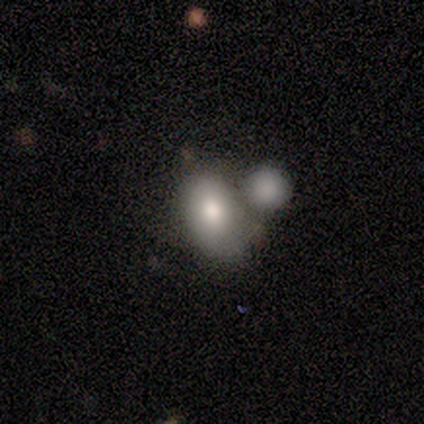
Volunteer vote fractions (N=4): A smooth galaxy with no disk features (100%) that is in between round and cigar-shaped (75%).

Vote fractions:
- Smooth or featured? smooth: 100% / featured or disk: 0% / star or artifact: 0%
- How rounded? in between: 75% / round: 25% / cigar-shaped: 0%
- Merging? minor disturbance: 50% / none: 25% / merger: 25% / major disturbance: 0%